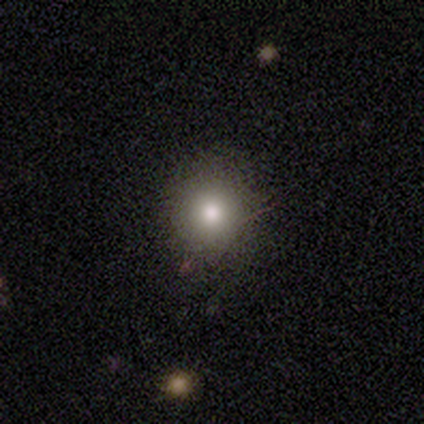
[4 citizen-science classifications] This is clearly a smooth galaxy (100%). How rounded: clearly round (100%). Merging: clearly none (100%).